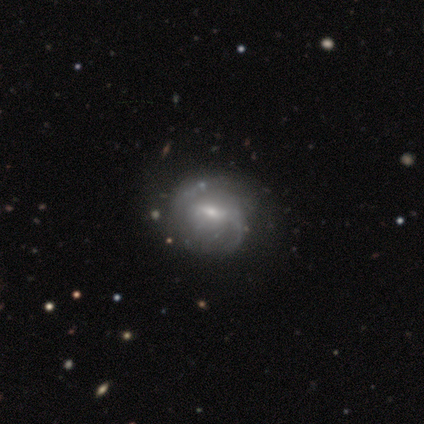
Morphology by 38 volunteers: Smooth or featured?
  - featured or disk: 89% *
  - smooth: 5%
  - star or artifact: 5%
Edge-on disk?
  - no: 100% *
  - yes: 0%
Bar?
  - weak: 53% *
  - strong: 29%
  - no: 18%
Spiral arms?
  - yes: 85% *
  - no: 15%
Spiral winding?
  - medium: 38% *
  - tight: 31%
  - loose: 31%
Spiral arm count?
  - 2: 59% *
  - can't tell: 21%
  - 1: 14%
  - 3: 3%
  - 4: 3%
  - more than 4: 0%
Bulge size?
  - small: 53% *
  - moderate: 41%
  - none: 6%
  - dominant: 0%
  - large: 0%
Merging?
  - none: 39% *
  - minor disturbance: 22%
  - major disturbance: 8%
  - merger: 3%